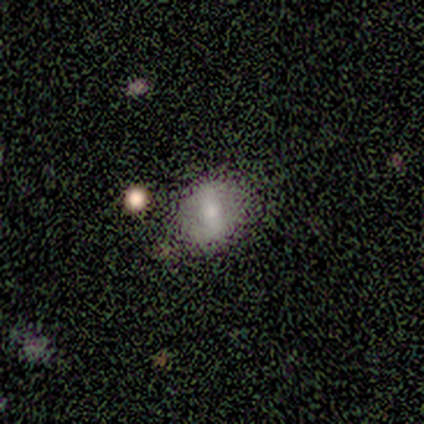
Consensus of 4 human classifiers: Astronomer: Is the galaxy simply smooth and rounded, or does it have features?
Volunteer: smooth — 75%.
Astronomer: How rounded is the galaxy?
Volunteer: in between — 100%.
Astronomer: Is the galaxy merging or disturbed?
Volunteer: none — 100%.